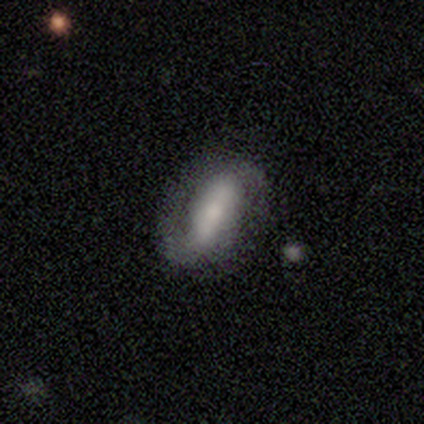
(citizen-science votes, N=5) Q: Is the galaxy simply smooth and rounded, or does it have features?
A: featured or disk — 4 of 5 (80%).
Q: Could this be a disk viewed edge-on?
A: no — 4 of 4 (100%).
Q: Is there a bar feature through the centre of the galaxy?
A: strong — 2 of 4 (50%, tied with no).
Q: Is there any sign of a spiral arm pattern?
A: yes — 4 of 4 (100%).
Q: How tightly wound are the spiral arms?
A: loose — 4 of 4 (100%).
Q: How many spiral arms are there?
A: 2 — 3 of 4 (75%).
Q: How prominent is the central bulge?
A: moderate — 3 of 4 (75%).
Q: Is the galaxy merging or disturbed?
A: none — 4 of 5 (80%).